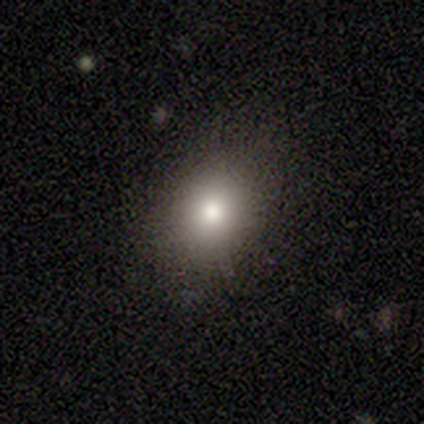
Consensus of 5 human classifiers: smooth_or_featured: smooth (p=1.00)
how_rounded: round (p=0.80) [alt: in between p=0.20]
merging: none (p=0.60) [alt: minor disturbance p=0.40]